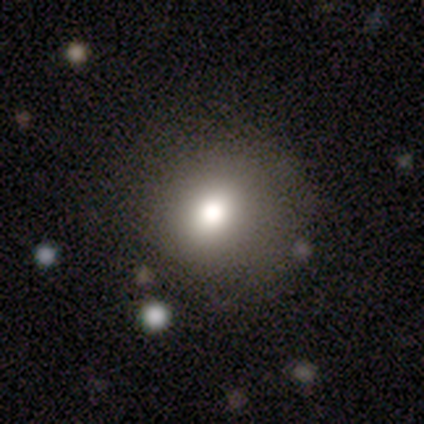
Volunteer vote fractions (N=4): Smooth or featured? 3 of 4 (75%) said smooth. How rounded? 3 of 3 (100%) said round. Merging? 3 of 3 (100%) said none.